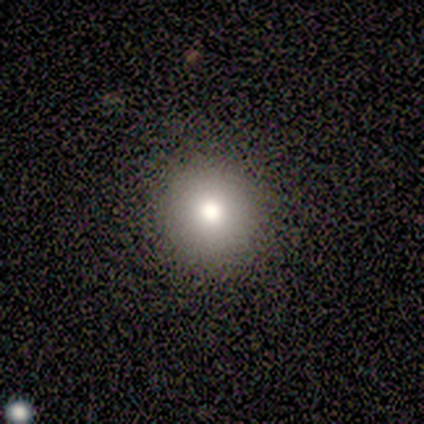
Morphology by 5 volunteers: Smooth or featured? 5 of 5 (100%) said smooth. How rounded? 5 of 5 (100%) said round. Merging? 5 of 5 (100%) said none.